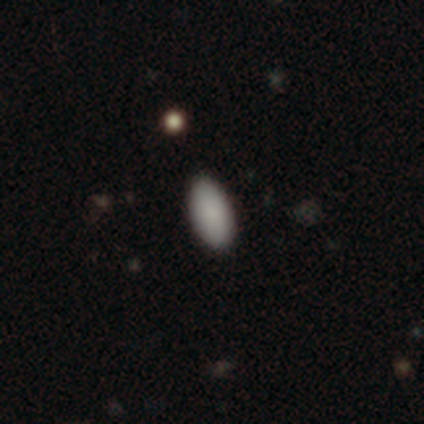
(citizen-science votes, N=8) Volunteers were most divided on "smooth or featured": smooth: 88%, star or artifact: 12%, featured or disk: 0%. More confident: how rounded — in between (100%); merging — none (100%).